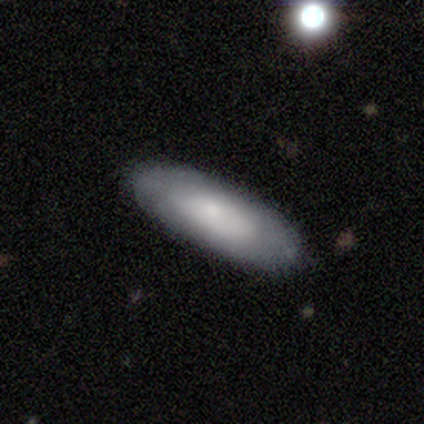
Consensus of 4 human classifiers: A smooth galaxy with no disk features (100%) that is in between round and cigar-shaped (50%, tied with cigar-shaped).

Vote fractions:
- Smooth or featured? smooth: 100% / featured or disk: 0% / star or artifact: 0%
- How rounded? in between: 50% (tied) / cigar-shaped: 50% (tied) / round: 0%
- Merging? none: 50% (tied) / minor disturbance: 50% (tied) / major disturbance: 0% / merger: 0%